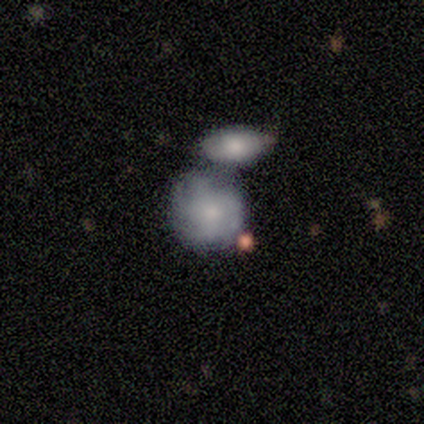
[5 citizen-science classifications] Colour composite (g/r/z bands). It shows a featured or disk galaxy (60%) with no bar (100%), 4 (100%) tight (100%) spiral arms (67%) and a moderate central bulge (100%). Merging: merger (60%).